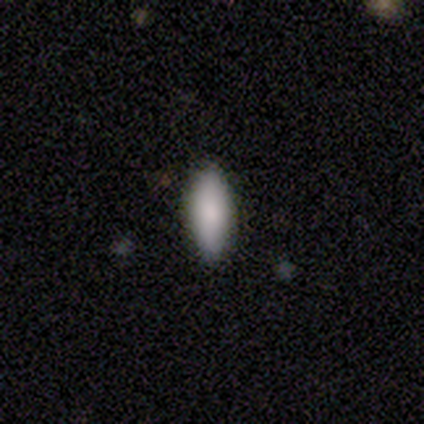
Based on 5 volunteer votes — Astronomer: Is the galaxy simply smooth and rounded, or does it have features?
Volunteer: smooth — 80%.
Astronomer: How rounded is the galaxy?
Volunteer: in between — 75%.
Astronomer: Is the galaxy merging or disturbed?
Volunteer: none — 100%.